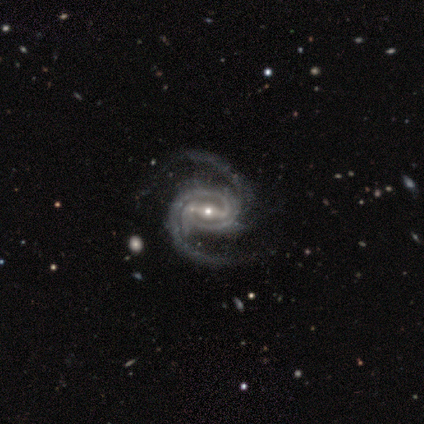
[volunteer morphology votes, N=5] Volunteers were most divided on "spiral winding" (2-way tie): tight: 40%, medium: 40%, loose: 20%. More confident: smooth or featured — featured or disk (100%); edge-on disk — no (100%); spiral arms — yes (100%); spiral arm count — 2 (100%); bulge size — small (80%); merging — none (80%); bar — strong (60%).